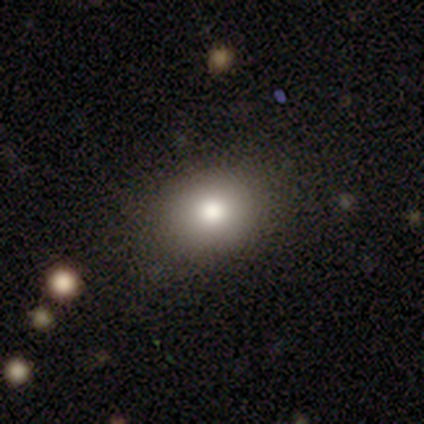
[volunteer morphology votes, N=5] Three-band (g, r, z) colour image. It shows a smooth galaxy with no disk features (80%) that is round (50%, tied with in between). Merging: none (80%).